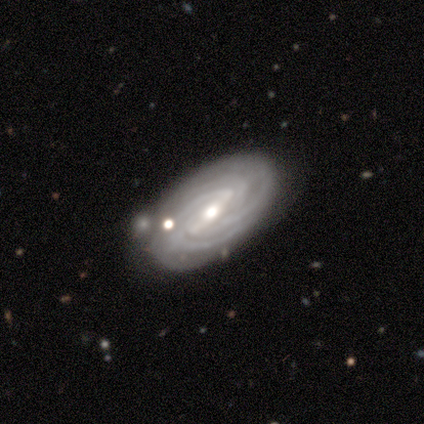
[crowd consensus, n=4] Overall: featured or disk (100%). Edge-on disk: no (100%). Bar: weak (75%). Spiral arms: yes (100%). Spiral arm count: 3 (50%; 4 25%). Spiral winding: tight (75%). Bulge size: moderate (100%). Merging: none (75%).